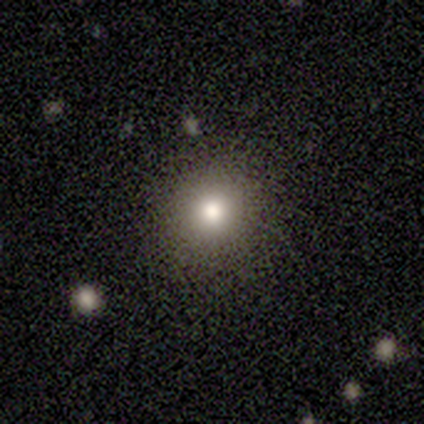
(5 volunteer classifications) Q: Smooth or featured?
A: smooth (80%); runner-up: star or artifact (20%)
Q: How rounded?
A: round (75%); runner-up: in between (25%)
Q: Merging?
A: none (100%)